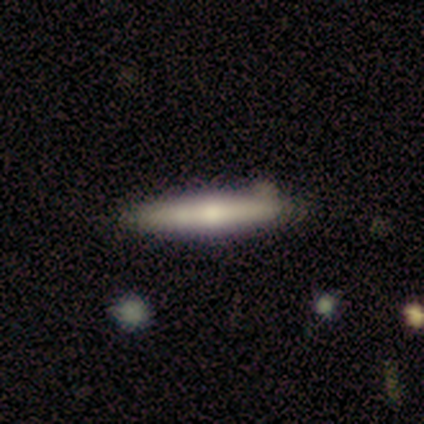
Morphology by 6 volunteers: A smooth galaxy with no disk features (50%, tied with featured or disk) that is cigar-shaped (100%). Merging: none (50%).